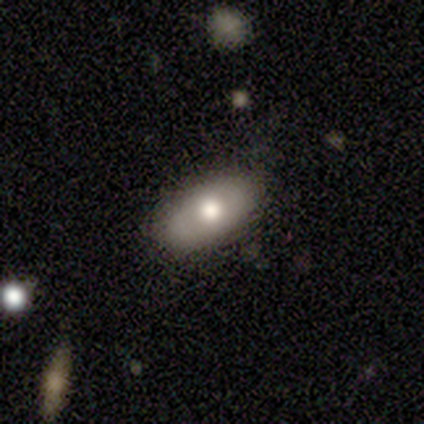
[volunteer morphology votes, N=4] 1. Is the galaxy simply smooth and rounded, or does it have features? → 100% featured or disk, 0% smooth, 0% star or artifact.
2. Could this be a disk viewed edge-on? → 100% no, 0% yes.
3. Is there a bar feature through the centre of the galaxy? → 100% no, 0% strong, 0% weak.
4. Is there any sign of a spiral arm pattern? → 100% no, 0% yes.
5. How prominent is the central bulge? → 50% moderate, 25% large, 25% small, 0% dominant, 0% none.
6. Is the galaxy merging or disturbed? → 75% none, 25% minor disturbance, 0% major disturbance, 0% merger.